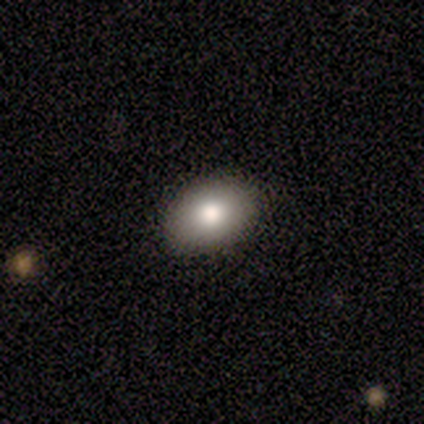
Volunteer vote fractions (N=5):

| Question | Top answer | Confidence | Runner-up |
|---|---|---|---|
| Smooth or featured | smooth | 100% | — |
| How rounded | in between | 80% | round (20%) |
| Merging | none | 100% | — |